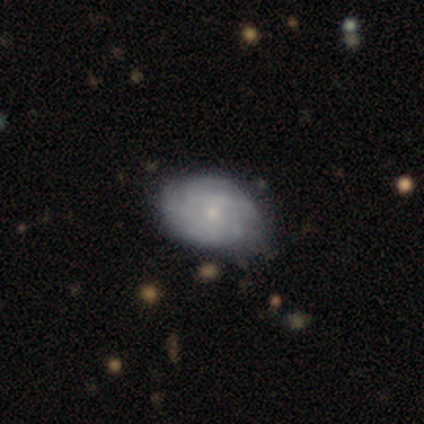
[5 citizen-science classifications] This appears to be a featured or disk galaxy (60%) with no bar (100%), medium (67%) spiral arms (100%) and a small central bulge (100%). Merging: none (60%).